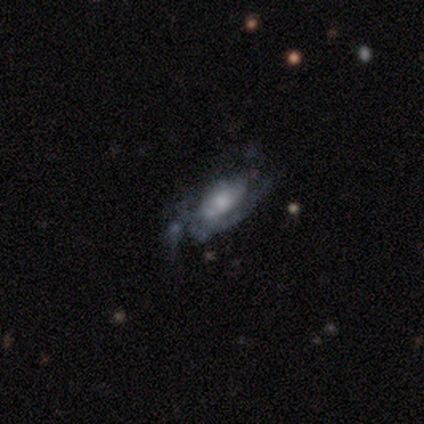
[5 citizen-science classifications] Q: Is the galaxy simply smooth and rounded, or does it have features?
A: smooth — 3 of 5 (60%).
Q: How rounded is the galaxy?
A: in between — 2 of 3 (67%).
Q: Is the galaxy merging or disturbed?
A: none — 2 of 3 (67%).